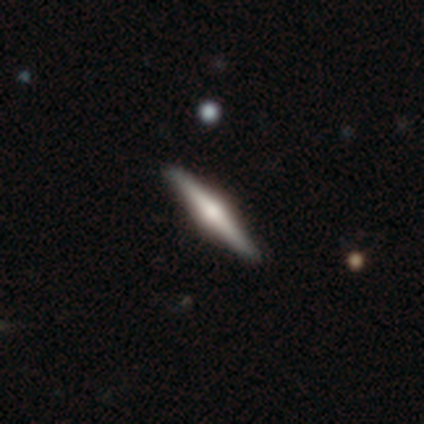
Smooth or featured?
  - featured or disk: 60% *
  - smooth: 40%
  - star or artifact: 0%
Edge-on disk?
  - yes: 100% *
  - no: 0%
Edge-on bulge?
  - rounded: 100% *
  - boxy: 0%
  - none: 0%
Merging?
  - none: 100% *
  - minor disturbance: 0%
  - major disturbance: 0%
  - merger: 0%